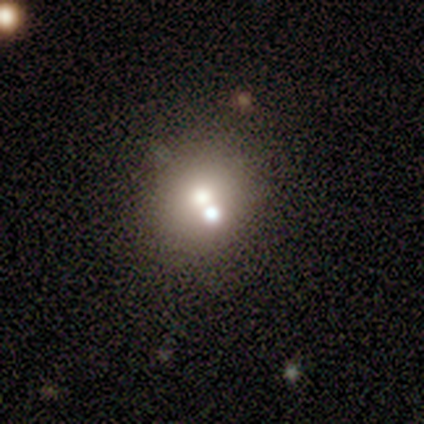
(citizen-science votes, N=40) A smooth galaxy with no disk features (68%) that is round (89%).

Vote fractions:
- Smooth or featured? smooth: 68% / star or artifact: 18% / featured or disk: 15%
- How rounded? round: 89% / in between: 11% / cigar-shaped: 0%
- Merging? none: 48% / merger: 42% / minor disturbance: 9% / major disturbance: 0%